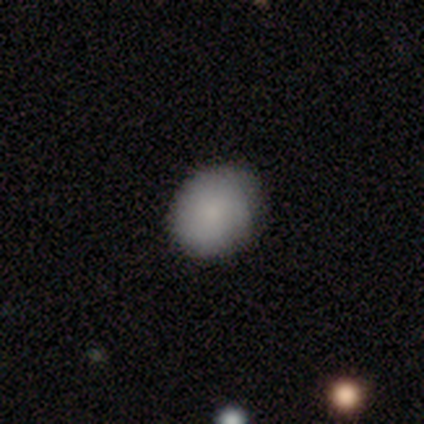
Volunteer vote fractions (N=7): smooth-or-featured: smooth: 100% | featured or disk: 0% | star or artifact: 0%
  how-rounded: round: 57% | in between: 43% | cigar-shaped: 0%
  merging: minor disturbance: 57% | none: 43% | major disturbance: 0% | merger: 0%